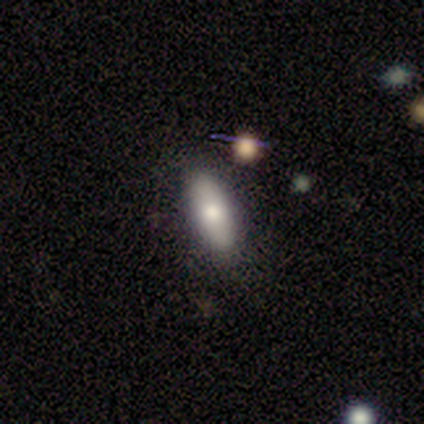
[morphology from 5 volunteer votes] smooth 80%, featured or disk 20%, star or artifact 0%. Down the decision tree: how rounded — in between (75%); merging — none (100%).